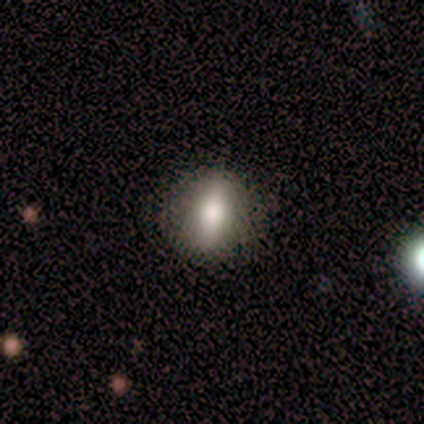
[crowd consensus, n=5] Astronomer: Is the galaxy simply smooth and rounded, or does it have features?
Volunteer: smooth — 60% (runner-up: featured or disk, 40%).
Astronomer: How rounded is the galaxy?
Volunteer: in between — 67%.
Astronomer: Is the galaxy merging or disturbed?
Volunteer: none — 80%.